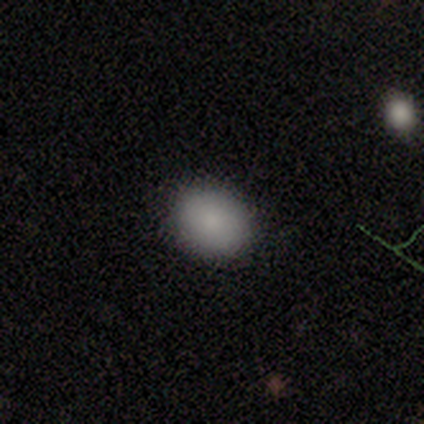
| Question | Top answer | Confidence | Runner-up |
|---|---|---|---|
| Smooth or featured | smooth | 100% | — |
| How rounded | round | 60% | in between (40%) |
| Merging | none | 60% | minor disturbance (20%) |